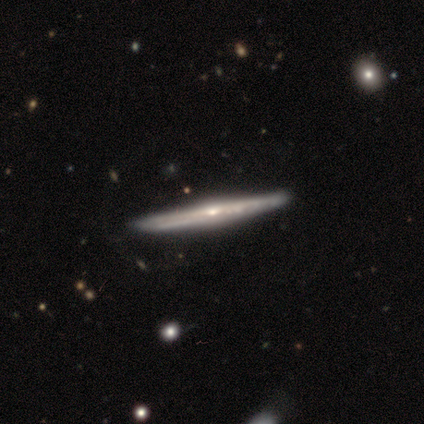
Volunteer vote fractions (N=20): Smooth or featured? 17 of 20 (85%) said featured or disk. Edge-on disk? 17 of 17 (100%) said yes. Edge-on bulge? 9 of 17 (53%) said rounded. Merging? 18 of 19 (95%) said none.